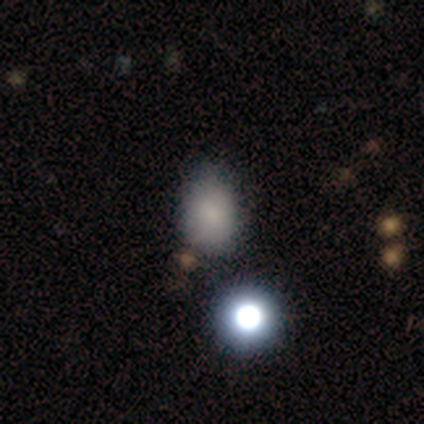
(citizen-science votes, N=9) smooth_or_featured: smooth (p=0.56) [alt: featured or disk p=0.22]
how_rounded: in between (p=0.80) [alt: round p=0.20]
merging: none (p=0.71) [alt: minor disturbance p=0.29]